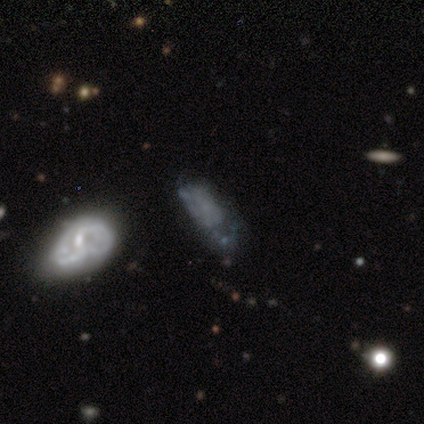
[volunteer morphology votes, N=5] A featured or disk galaxy (80%) with no bar (100%), no spiral arms (75%) and no central bulge (50%). Merging: none (50%).